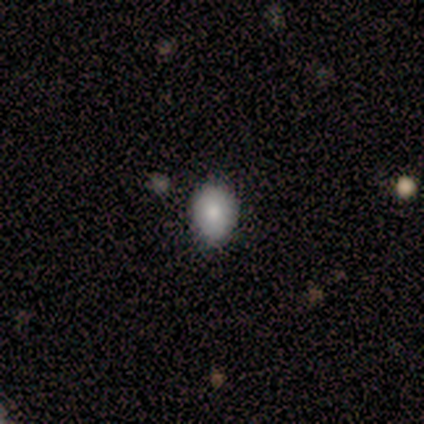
Smooth or featured?
  - smooth: 100% *
  - featured or disk: 0%
  - star or artifact: 0%
How rounded?
  - in between: 80% *
  - round: 20%
  - cigar-shaped: 0%
Merging?
  - none: 60% *
  - minor disturbance: 40%
  - major disturbance: 0%
  - merger: 0%